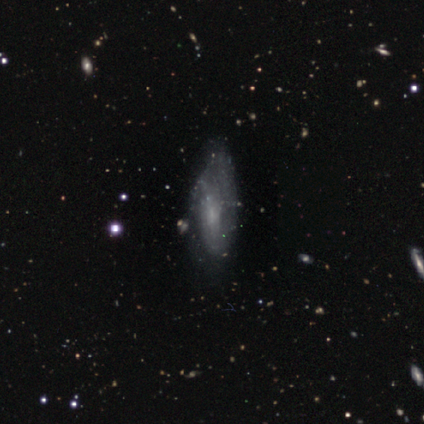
Q: Smooth or featured?
A: featured or disk (80%); runner-up: smooth (20%)
Q: Edge-on disk?
A: no (100%)
Q: Bar?
A: weak (50%); runner-up: strong (25%)
Q: Spiral arms?
A: yes (50%); tied with: no (50%)
Q: Spiral winding?
A: medium (50%); tied with: loose (50%)
Q: Spiral arm count?
A: 1 (50%); tied with: can't tell (50%)
Q: Bulge size?
A: none (75%); runner-up: small (25%)
Q: Merging?
A: none (60%); runner-up: minor disturbance (20%)